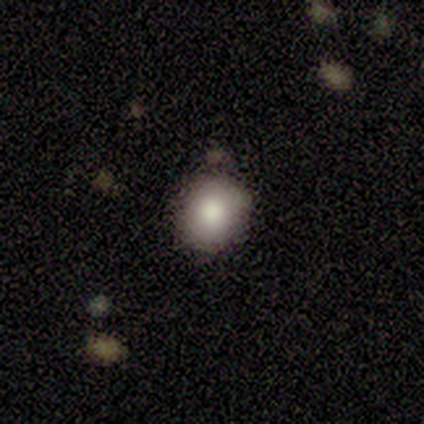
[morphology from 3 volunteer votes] Q: Smooth or featured?
A: smooth (67%); runner-up: star or artifact (33%)
Q: How rounded?
A: round (100%)
Q: Merging?
A: none (50%); tied with: merger (50%)